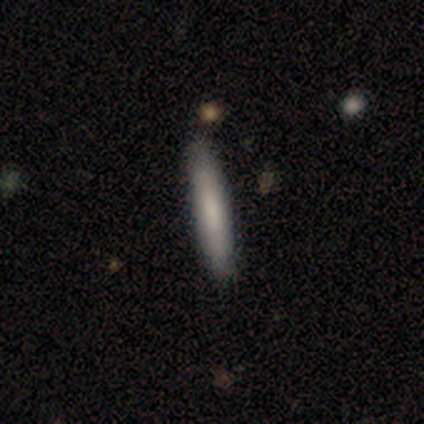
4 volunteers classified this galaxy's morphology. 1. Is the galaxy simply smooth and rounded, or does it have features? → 100% featured or disk, 0% smooth, 0% star or artifact.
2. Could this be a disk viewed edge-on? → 100% yes, 0% no.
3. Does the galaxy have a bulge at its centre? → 75% none, 25% rounded, 0% boxy.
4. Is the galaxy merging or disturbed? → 75% none, 25% minor disturbance, 0% major disturbance, 0% merger.